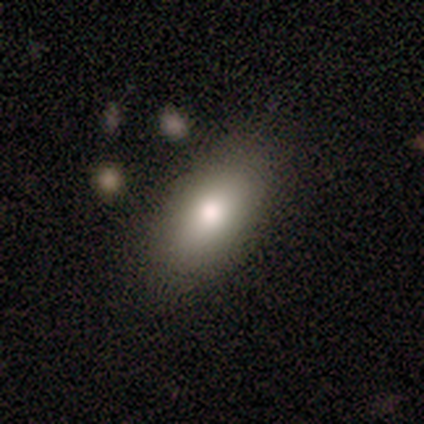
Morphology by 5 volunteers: This is clearly a smooth galaxy (100%). How rounded: clearly in between (100%). Merging: clearly none (80%).